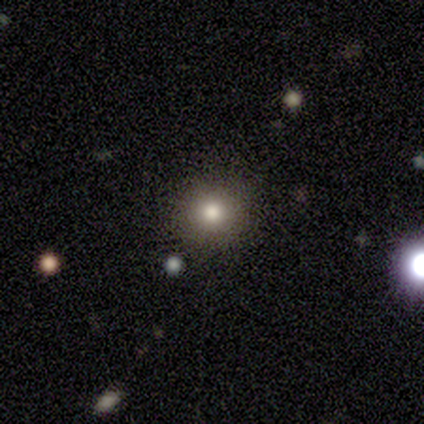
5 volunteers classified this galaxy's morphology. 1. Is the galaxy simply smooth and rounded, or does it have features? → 80% smooth, 20% star or artifact, 0% featured or disk.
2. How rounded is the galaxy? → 100% round, 0% in between, 0% cigar-shaped.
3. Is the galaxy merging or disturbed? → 100% none, 0% minor disturbance, 0% major disturbance, 0% merger.